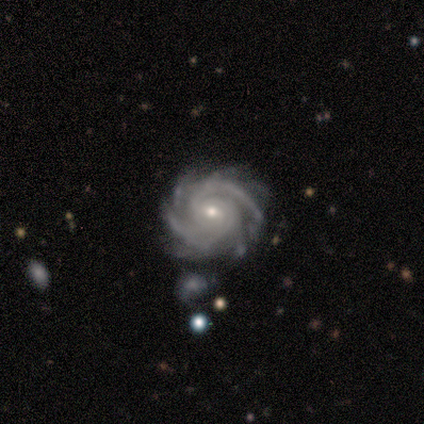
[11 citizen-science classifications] featured or disk 91%, star or artifact 9%, smooth 0%. Down the decision tree: edge-on disk — no (100%); bar — no (60%); spiral arms — yes (100%); spiral arm count — 2 (60%); spiral winding — tight (80%); bulge size — small (60%); merging — none (70%).